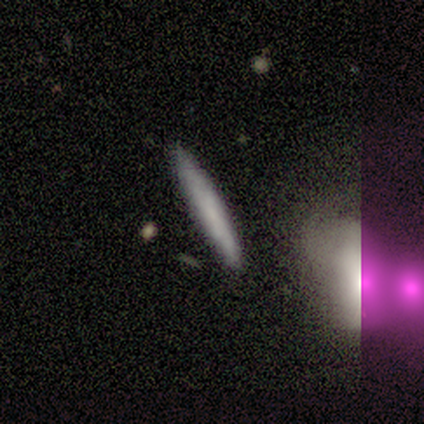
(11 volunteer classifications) smooth_or_featured: smooth (p=0.73) [alt: featured or disk p=0.27]
how_rounded: cigar-shaped (p=1.00)
merging: none (p=1.00)